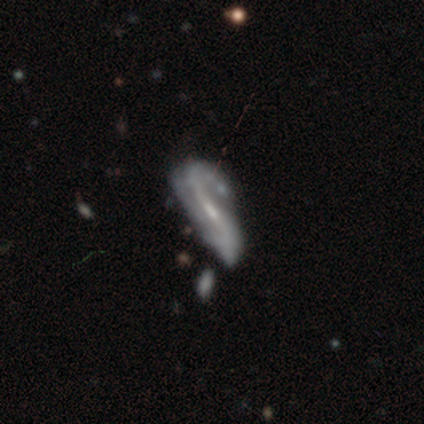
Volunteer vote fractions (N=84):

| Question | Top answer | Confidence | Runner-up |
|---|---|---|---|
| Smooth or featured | featured or disk | 64% | smooth (23%) |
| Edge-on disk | no | 87% | yes (13%) |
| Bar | weak | 49% | strong (32%) |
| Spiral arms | yes | 85% | no (15%) |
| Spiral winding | loose | 68% | medium (20%) |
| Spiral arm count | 2 | 72% | 1 (12%) |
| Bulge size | small | 68% | moderate (23%) |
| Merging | none | 47% | minor disturbance (26%) |